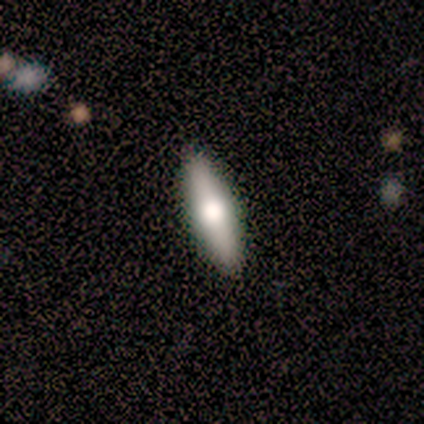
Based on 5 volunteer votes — Smooth or featured? 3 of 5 (60%) said featured or disk. Edge-on disk? 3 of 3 (100%) said yes. Edge-on bulge? 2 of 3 (67%) said rounded. Merging? 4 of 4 (100%) said none.